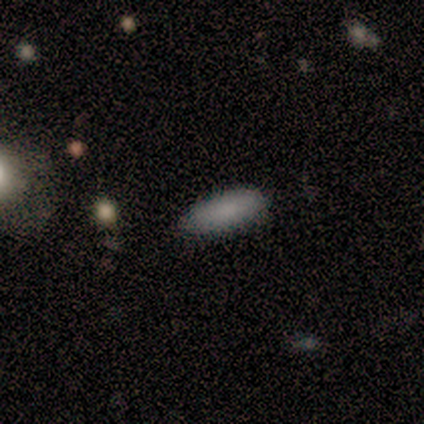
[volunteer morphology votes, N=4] smooth-or-featured: smooth: 100% | featured or disk: 0% | star or artifact: 0%
  how-rounded: in between: 100% | round: 0% | cigar-shaped: 0%
  merging: none: 100% | minor disturbance: 0% | major disturbance: 0% | merger: 0%